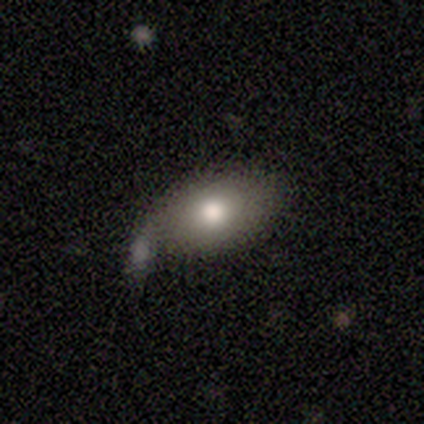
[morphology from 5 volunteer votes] A smooth galaxy with no disk features (60%) that is in between round and cigar-shaped (100%).

Vote fractions:
- Smooth or featured? smooth: 60% / featured or disk: 40% / star or artifact: 0%
- How rounded? in between: 100% / round: 0% / cigar-shaped: 0%
- Merging? minor disturbance: 60% / none: 20% / major disturbance: 20% / merger: 0%